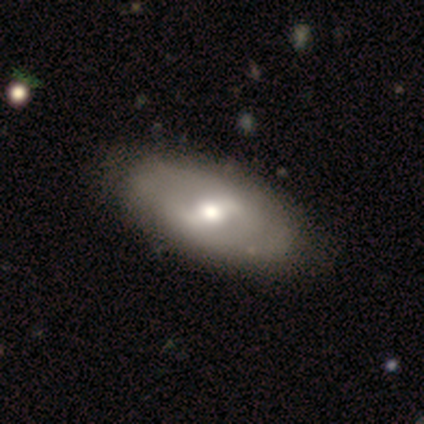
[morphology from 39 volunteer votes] featured or disk 79%, smooth 21%, star or artifact 0%. Down the decision tree: edge-on disk — no (87%); bar — weak (48%); spiral arms — no (52%); bulge size — moderate (70%); merging — none (56%).